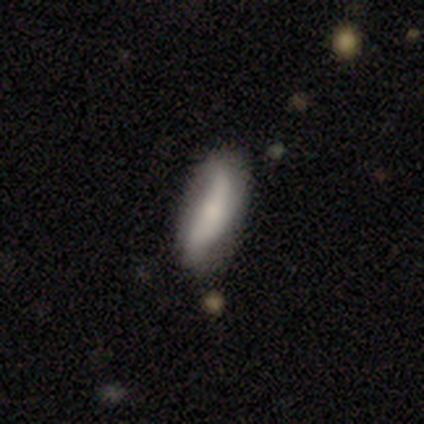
Q: Smooth or featured?
A: smooth (50%); tied with: featured or disk (50%)
Q: How rounded?
A: in between (100%)
Q: Merging?
A: none (50%); runner-up: minor disturbance (25%)